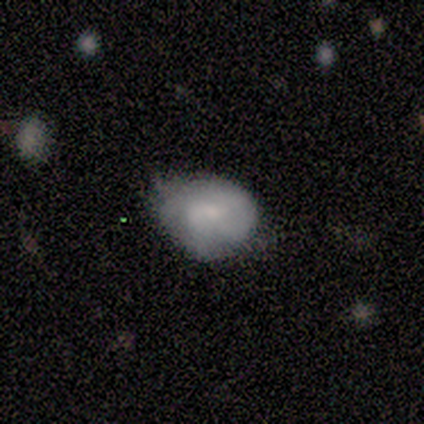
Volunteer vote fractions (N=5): Morphology: type=featured or disk (60%); edge-on=no (67%); bar=weak (50%, tied with no); spiral arms=yes (50%, tied with no); winding=medium (100%); arm count=3 (100%); bulge=moderate (100%); merging=none (40%, tied with minor disturbance).